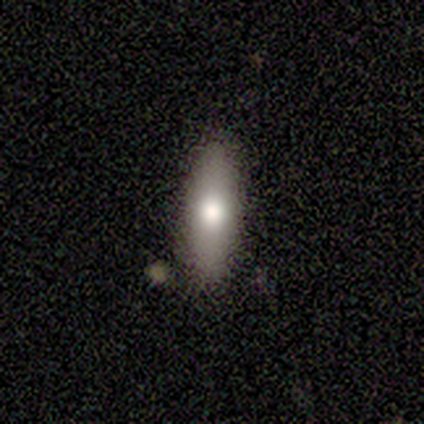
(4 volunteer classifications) smooth-or-featured: smooth: 75% | featured or disk: 25% | star or artifact: 0%
  how-rounded: in between: 67% | cigar-shaped: 33% | round: 0%
  merging: none: 75% | minor disturbance: 25% | major disturbance: 0% | merger: 0%